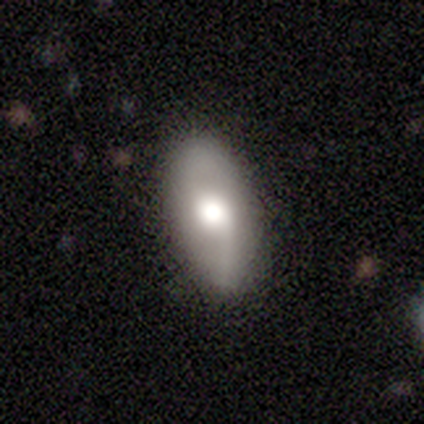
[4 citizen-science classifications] smooth_or_featured: smooth (p=1.00)
how_rounded: in between (p=0.75) [alt: cigar-shaped p=0.25]
merging: none (p=1.00)